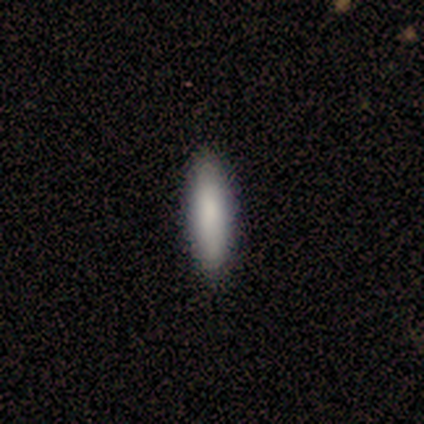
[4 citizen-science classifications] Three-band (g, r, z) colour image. It shows a smooth galaxy with no disk features (100%) that is cigar-shaped (75%). Merging: none (100%).